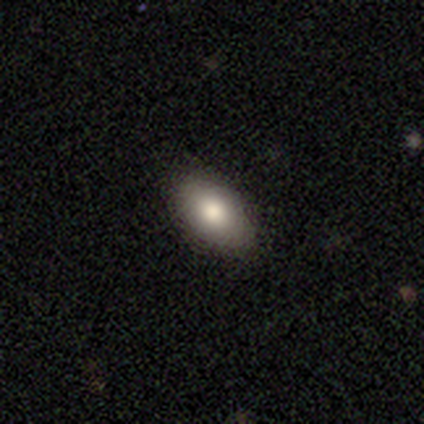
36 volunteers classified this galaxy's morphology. Smooth or featured? 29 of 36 (81%) said smooth. How rounded? 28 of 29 (97%) said in between. Merging? 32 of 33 (97%) said none.